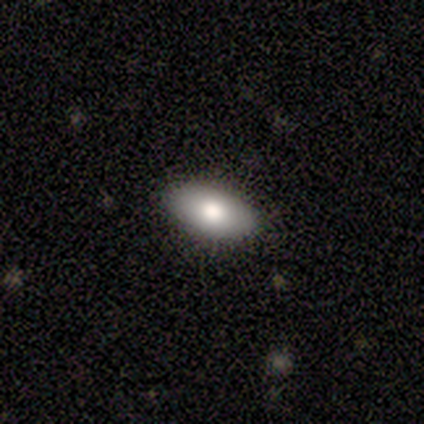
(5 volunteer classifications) Volunteers were most divided on "smooth or featured": smooth: 60%, featured or disk: 20%, star or artifact: 20%. More confident: how rounded — in between (100%); merging — none (100%).